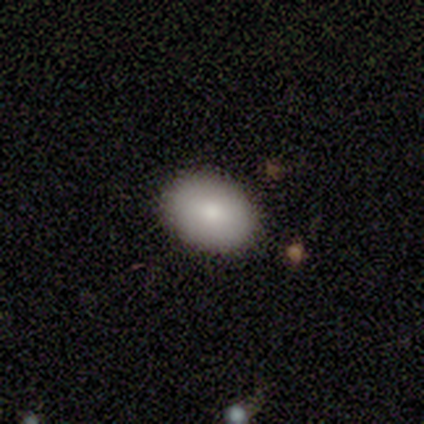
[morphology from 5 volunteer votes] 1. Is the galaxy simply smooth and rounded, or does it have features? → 100% smooth, 0% featured or disk, 0% star or artifact.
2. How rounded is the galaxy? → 100% in between, 0% round, 0% cigar-shaped.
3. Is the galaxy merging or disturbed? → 100% none, 0% minor disturbance, 0% major disturbance, 0% merger.